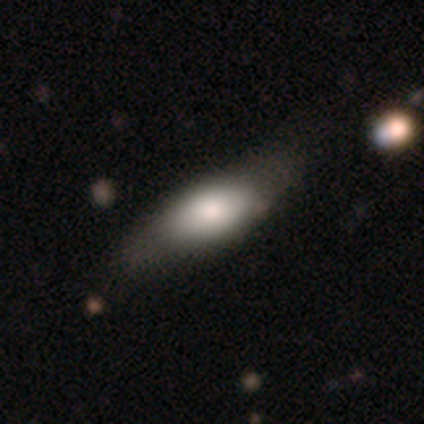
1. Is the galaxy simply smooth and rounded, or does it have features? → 58% smooth, 37% featured or disk, 5% star or artifact.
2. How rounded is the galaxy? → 73% in between, 27% cigar-shaped, 0% round.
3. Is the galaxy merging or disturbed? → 61% none, 28% minor disturbance, 11% merger, 0% major disturbance.